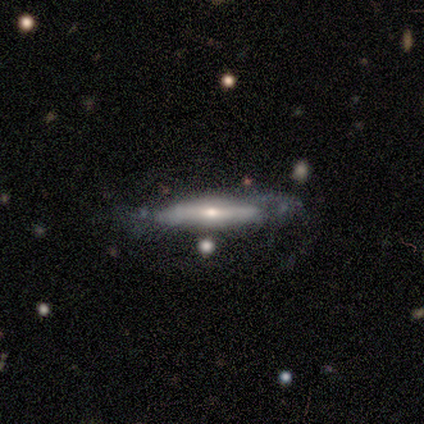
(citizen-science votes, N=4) A smooth galaxy with no disk features (50%, tied with featured or disk) that is cigar-shaped (100%). Merging: none (75%).